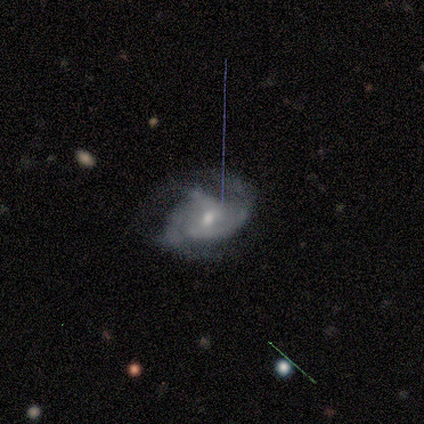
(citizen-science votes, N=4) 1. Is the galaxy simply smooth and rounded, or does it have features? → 100% featured or disk, 0% smooth, 0% star or artifact.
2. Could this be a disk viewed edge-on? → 100% no, 0% yes.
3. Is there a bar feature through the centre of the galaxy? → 50% weak (tied), 50% no (tied), 0% strong.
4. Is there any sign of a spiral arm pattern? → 100% yes, 0% no.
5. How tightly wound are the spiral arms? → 75% medium, 25% tight, 0% loose.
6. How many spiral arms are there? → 50% 2, 25% 3, 25% can't tell, 0% 1, 0% 4, 0% more than 4.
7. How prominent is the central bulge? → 75% small, 25% moderate, 0% dominant, 0% large, 0% none.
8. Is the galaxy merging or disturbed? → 50% major disturbance, 25% none, 25% minor disturbance, 0% merger.